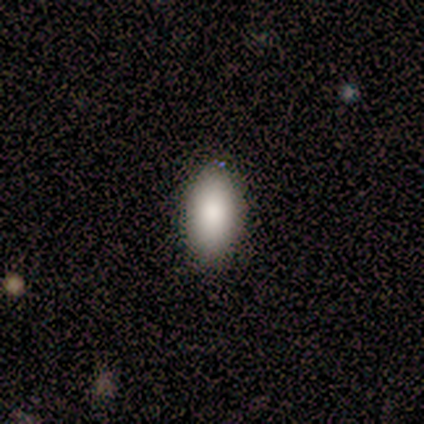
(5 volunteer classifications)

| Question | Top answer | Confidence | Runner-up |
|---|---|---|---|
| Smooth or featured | smooth | 100% | — |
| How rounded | in between | 100% | — |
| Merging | none | 100% | — |